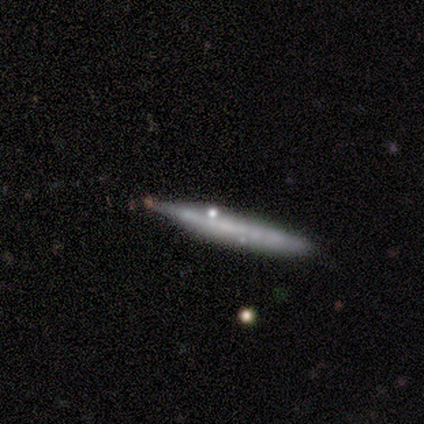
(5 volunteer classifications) Volunteers were most divided on "smooth or featured": smooth: 60%, featured or disk: 20%, star or artifact: 20%. More confident: how rounded — cigar-shaped (100%); merging — none (75%).